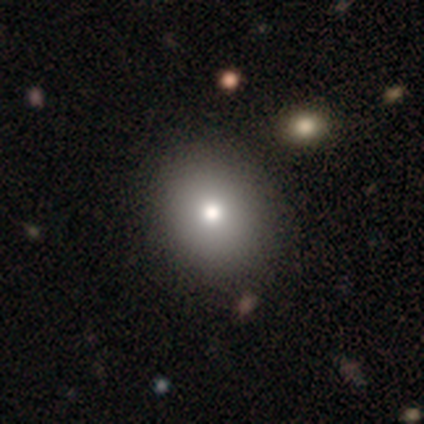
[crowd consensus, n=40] A smooth galaxy with no disk features (82%) that is round (67%).

Vote fractions:
- Smooth or featured? smooth: 82% / featured or disk: 12% / star or artifact: 5%
- How rounded? round: 67% / in between: 33% / cigar-shaped: 0%
- Merging? none: 66% / major disturbance: 5% / merger: 3% / minor disturbance: 0%